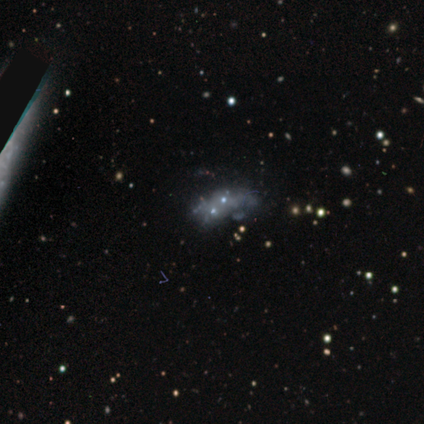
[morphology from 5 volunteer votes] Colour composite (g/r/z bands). It shows a featured or disk galaxy (60%) with no bar (100%), no spiral arms (100%) and no central bulge (67%). Merging: none (50%, tied with merger).